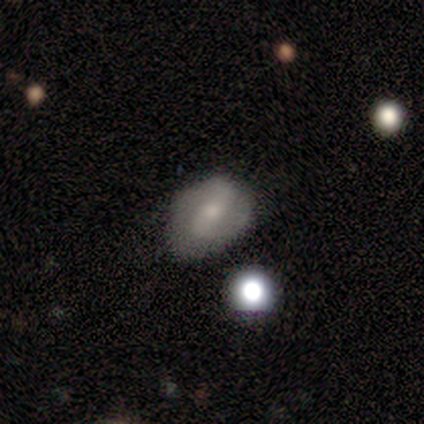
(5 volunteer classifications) Smooth or featured?
  - smooth: 80% *
  - featured or disk: 20%
  - star or artifact: 0%
How rounded?
  - round: 75% *
  - in between: 25%
  - cigar-shaped: 0%
Merging?
  - none: 40% * (tied)
  - major disturbance: 40% * (tied)
  - minor disturbance: 20%
  - merger: 0%